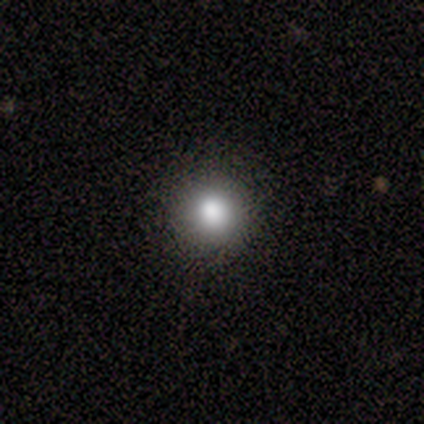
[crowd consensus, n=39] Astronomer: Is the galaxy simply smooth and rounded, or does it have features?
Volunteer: smooth — 67%.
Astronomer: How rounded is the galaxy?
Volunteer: round — 96%.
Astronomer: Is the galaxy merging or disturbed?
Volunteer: none — 90%.